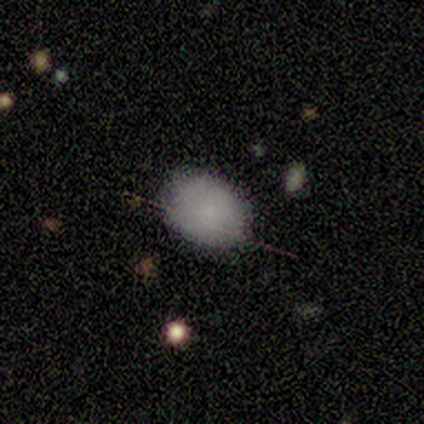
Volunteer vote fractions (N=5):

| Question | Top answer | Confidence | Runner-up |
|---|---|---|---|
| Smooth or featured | smooth | 100% | — |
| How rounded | in between | 60% | round (40%) |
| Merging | none | 80% | minor disturbance (20%) |